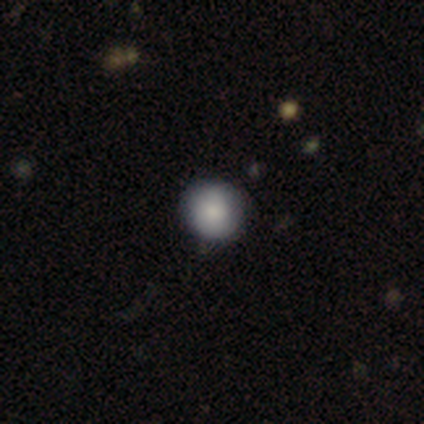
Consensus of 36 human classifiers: smooth_or_featured: smooth (p=0.89) [alt: star or artifact p=0.08]
how_rounded: round (p=0.91) [alt: in between p=0.09]
merging: none (p=0.88) [alt: minor disturbance p=0.12]